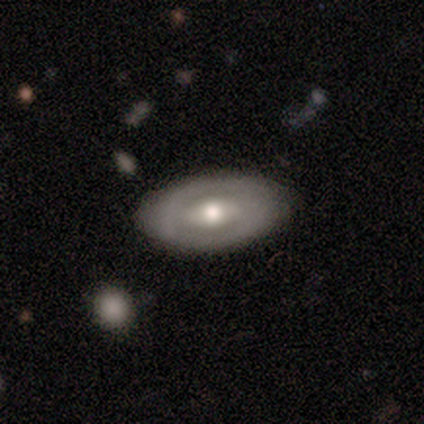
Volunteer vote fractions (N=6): Smooth or featured? featured or disk (67%)
Edge-on disk? no (100%)
Bar? strong (100%)
Spiral arms? yes (75%)
Spiral winding? tight (33%, tied with medium and loose)
Spiral arm count? 2 (100%)
Bulge size? moderate (100%)
Merging? none (100%)